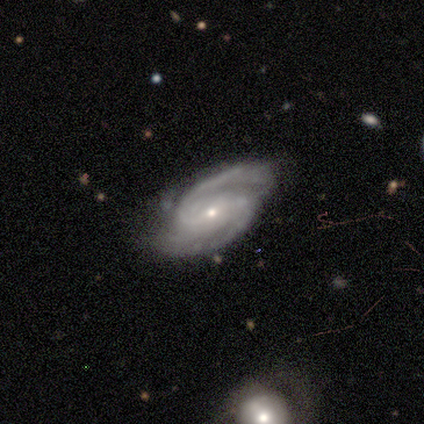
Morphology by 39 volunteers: A featured or disk galaxy (97%) with a weak bar (45%), 2 (89%) medium (70%) spiral arms (97%) and a small central bulge (79%).

Vote fractions:
- Smooth or featured? featured or disk: 97% / star or artifact: 3% / smooth: 0%
- Edge-on disk? no: 100% / yes: 0%
- Bar? weak: 45% / no: 32% / strong: 24%
- Spiral arms? yes: 97% / no: 3%
- Spiral winding? medium: 70% / tight: 24% / loose: 5%
- Spiral arm count? 2: 89% / can't tell: 8% / 3: 3% / 1: 0% / 4: 0% / more than 4: 0%
- Bulge size? small: 79% / moderate: 18% / dominant: 3% / large: 0% / none: 0%
- Merging? none: 84% / minor disturbance: 11% / major disturbance: 5% / merger: 0%